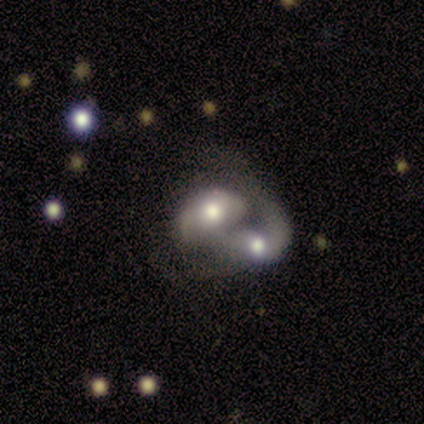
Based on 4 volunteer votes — This is possibly a smooth galaxy (50%, tied with featured or disk). How rounded: possibly round (50%, tied with in between). Merging: likely merger (75%).